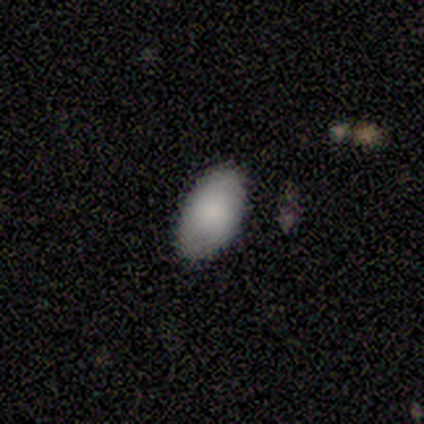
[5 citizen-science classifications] A smooth galaxy with no disk features (100%) that is in between round and cigar-shaped (100%). Merging: none (100%).